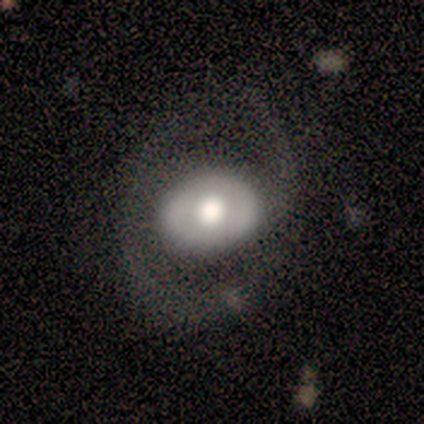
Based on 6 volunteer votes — Smooth or featured?
  - featured or disk: 83% *
  - smooth: 17%
  - star or artifact: 0%
Edge-on disk?
  - no: 100% *
  - yes: 0%
Bar?
  - no: 80% *
  - strong: 20%
  - weak: 0%
Spiral arms?
  - yes: 100% *
  - no: 0%
Spiral winding?
  - loose: 60% *
  - medium: 40%
  - tight: 0%
Spiral arm count?
  - 2: 80% *
  - 1: 20%
  - 3: 0%
  - 4: 0%
  - more than 4: 0%
  - can't tell: 0%
Bulge size?
  - large: 60% *
  - moderate: 40%
  - dominant: 0%
  - small: 0%
  - none: 0%
Merging?
  - none: 67% *
  - minor disturbance: 17%
  - major disturbance: 17%
  - merger: 0%